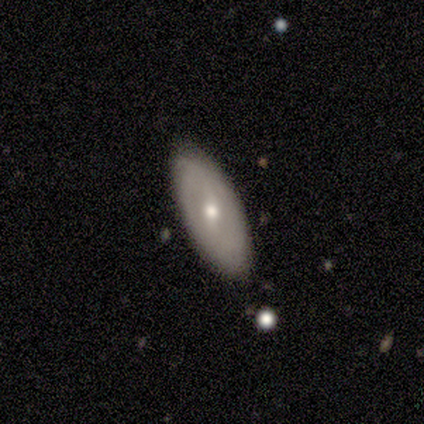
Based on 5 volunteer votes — smooth_or_featured: smooth (p=0.80) [alt: featured or disk p=0.20]
how_rounded: in between (p=1.00)
merging: none (p=0.80) [alt: minor disturbance p=0.20]